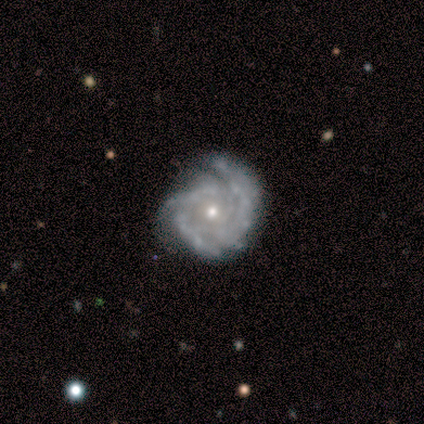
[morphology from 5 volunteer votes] smooth_or_featured: featured or disk (p=1.00)
disk_edge_on: no (p=1.00)
bar: no (p=0.80) [alt: weak p=0.20]
has_spiral_arms: yes (p=0.80) [alt: no p=0.20]
spiral_winding: tight (p=1.00)
spiral_arm_count: 2 (p=0.25) [tied with: 3 p=0.25, 4 p=0.25, can't tell p=0.25]
bulge_size: small (p=0.60) [alt: moderate p=0.20]
merging: none (p=1.00)